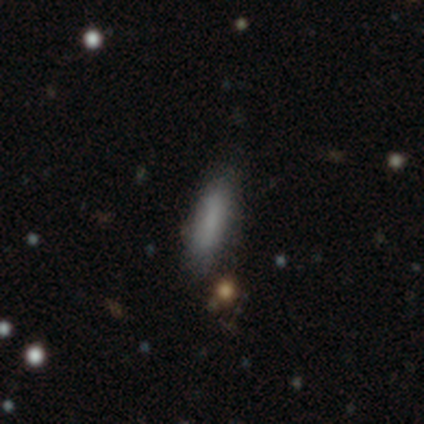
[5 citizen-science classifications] smooth 100%, featured or disk 0%, star or artifact 0%. Down the decision tree: how rounded — cigar-shaped (60%); merging — none (80%).